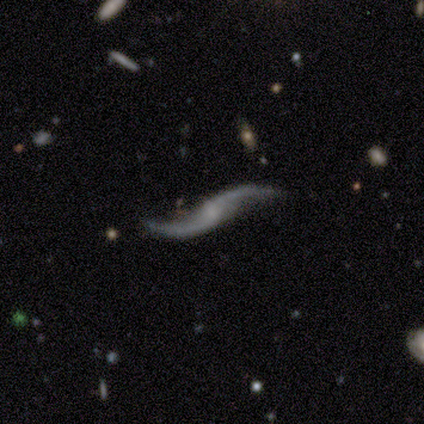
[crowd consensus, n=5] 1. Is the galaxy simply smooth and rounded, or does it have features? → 80% featured or disk, 20% smooth, 0% star or artifact.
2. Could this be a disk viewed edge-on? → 75% no, 25% yes.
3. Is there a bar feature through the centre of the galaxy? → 67% no, 33% strong, 0% weak.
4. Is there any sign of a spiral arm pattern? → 100% yes, 0% no.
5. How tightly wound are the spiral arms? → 100% loose, 0% tight, 0% medium.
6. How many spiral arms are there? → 100% 2, 0% 1, 0% 3, 0% 4, 0% more than 4, 0% can't tell.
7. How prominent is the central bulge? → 33% moderate (tied), 33% small (tied), 33% none (tied), 0% dominant, 0% large.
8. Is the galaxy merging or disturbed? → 60% none, 20% minor disturbance, 20% merger, 0% major disturbance.